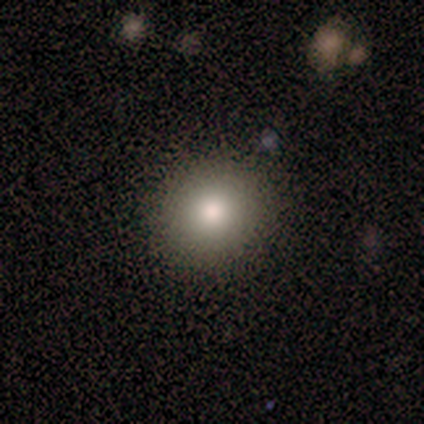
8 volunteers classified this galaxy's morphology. A smooth galaxy with no disk features (88%) that is round (86%).

Vote fractions:
- Smooth or featured? smooth: 88% / star or artifact: 12% / featured or disk: 0%
- How rounded? round: 86% / in between: 14% / cigar-shaped: 0%
- Merging? none: 100% / minor disturbance: 0% / major disturbance: 0% / merger: 0%